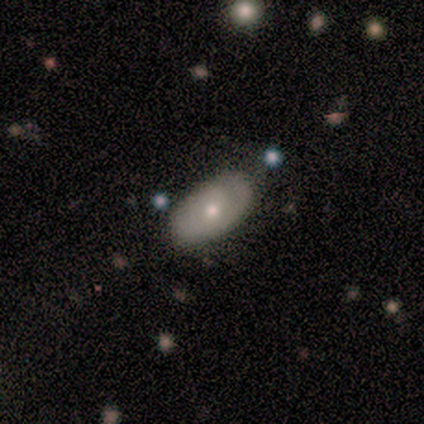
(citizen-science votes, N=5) This is clearly a featured or disk galaxy (80%). It is clearly not viewed edge-on (100%). Bar: likely no (75%). Spiral arm pattern: possibly yes (50%, tied with no). Spiral arm count: clearly 1 (100%). Spiral winding: possibly tight (50%, tied with loose). Central bulge: likely moderate (75%). Merging: clearly none (80%).